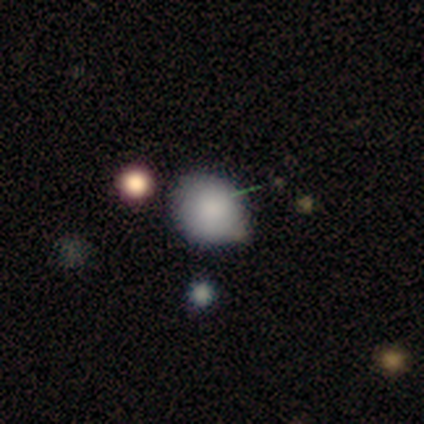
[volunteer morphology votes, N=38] This is clearly a smooth galaxy (84%). How rounded: likely round (72%). Merging: likely none (65%).